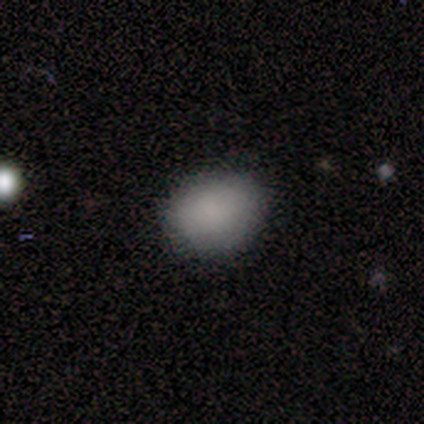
Volunteers were most divided on "how rounded": in between: 60%, round: 40%, cigar-shaped: 0%. More confident: smooth or featured — smooth (100%); merging — none (60%).